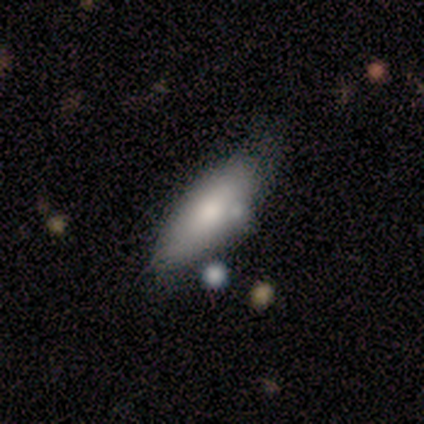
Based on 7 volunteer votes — smooth 71%, star or artifact 29%, featured or disk 0%. Down the decision tree: how rounded — in between (100%); merging — none (60%).